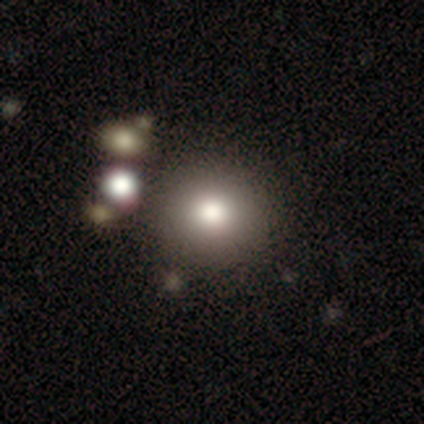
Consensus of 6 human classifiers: Smooth or featured? star or artifact (50%)